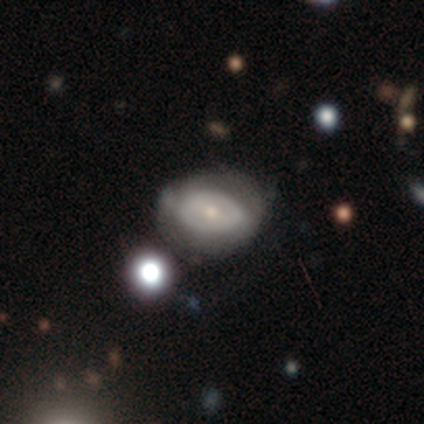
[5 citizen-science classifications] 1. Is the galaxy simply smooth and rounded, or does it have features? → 40% smooth (tied), 40% featured or disk (tied), 20% star or artifact.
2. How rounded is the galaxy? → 50% round (tied), 50% in between (tied), 0% cigar-shaped.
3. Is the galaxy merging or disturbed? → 75% none, 25% minor disturbance, 0% major disturbance, 0% merger.